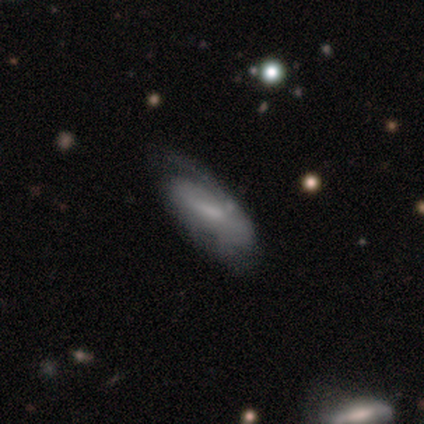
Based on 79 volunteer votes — Smooth or featured: featured or disk — 72% (smooth — 25%)
Edge-on disk: no — 93% (yes — 7%)
Bar: weak — 53% (no — 26%)
Spiral arms: yes — 75% (no — 25%)
Spiral winding: medium — 38% (loose — 35%)
Spiral arm count: 2 — 48% (1 — 28%)
Bulge size: none — 38% (small — 36%)
Merging: none — 36% (minor disturbance — 17%)